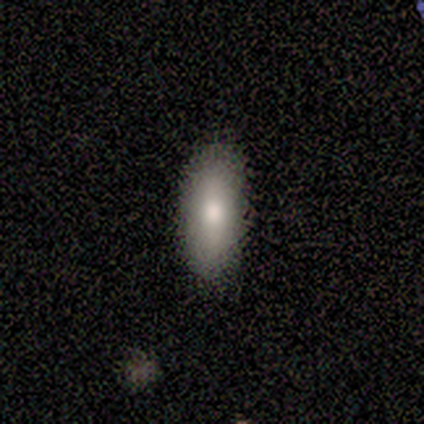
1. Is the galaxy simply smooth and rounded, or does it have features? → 80% smooth, 20% featured or disk, 0% star or artifact.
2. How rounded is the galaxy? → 100% in between, 0% round, 0% cigar-shaped.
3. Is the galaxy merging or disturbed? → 100% none, 0% minor disturbance, 0% major disturbance, 0% merger.